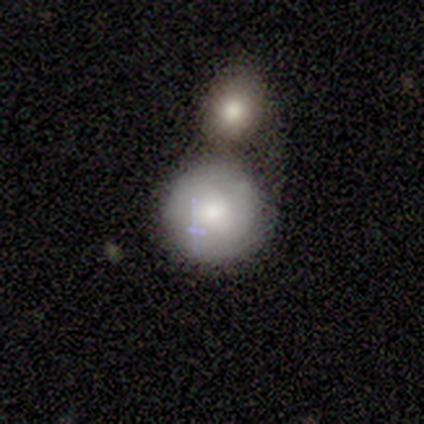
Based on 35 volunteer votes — A smooth galaxy with no disk features (83%) that is round (93%). Merging: merger (46%).